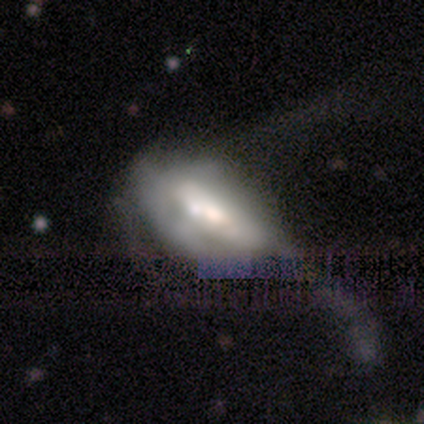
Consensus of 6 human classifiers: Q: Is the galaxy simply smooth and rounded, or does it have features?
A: featured or disk — 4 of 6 (67%).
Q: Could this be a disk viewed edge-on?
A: no — 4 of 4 (100%).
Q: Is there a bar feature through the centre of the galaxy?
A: no — 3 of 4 (75%).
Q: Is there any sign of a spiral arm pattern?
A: no — 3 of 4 (75%).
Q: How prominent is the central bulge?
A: dominant — 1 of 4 (25%, tied with large, moderate and small).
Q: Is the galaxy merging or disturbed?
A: major disturbance — 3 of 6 (50%, tied with merger).